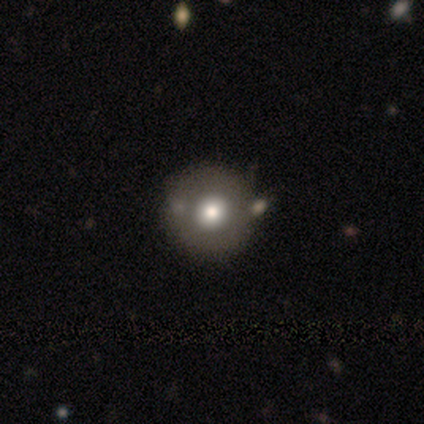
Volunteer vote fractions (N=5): featured or disk 40% (tied), star or artifact 40% (tied), smooth 20%. Down the decision tree: edge-on disk — no (100%); bar — no (100%); spiral arms — no (100%); bulge size — moderate (100%); merging — none (67%).